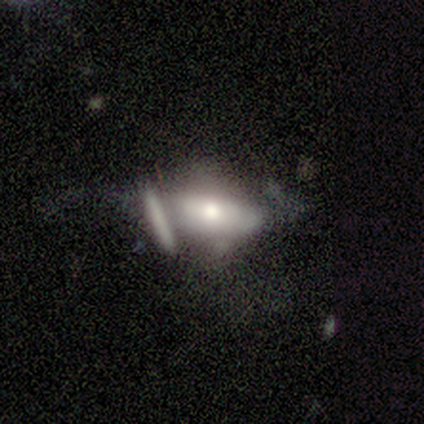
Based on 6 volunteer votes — Overall: featured or disk (50%; smooth 33%). Edge-on disk: no (100%). Bar: no (100%). Spiral arms: no (67%; yes 33%). Bulge size: moderate (100%). Merging: none (40%; minor disturbance 20%).